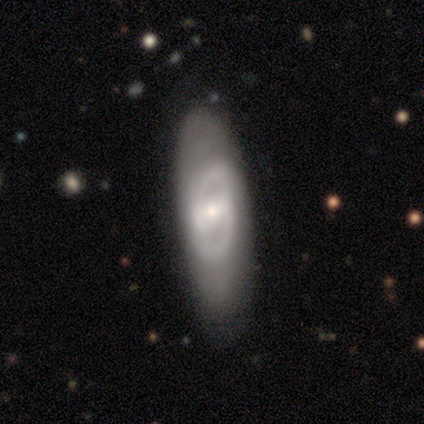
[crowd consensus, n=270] featured or disk 49%, smooth 42%, star or artifact 10%. Down the decision tree: edge-on disk — no (78%); bar — weak (53%); spiral arms — yes (77%); spiral arm count — 2 (84%); spiral winding — medium (48%); bulge size — small (67%); merging — none (65%).